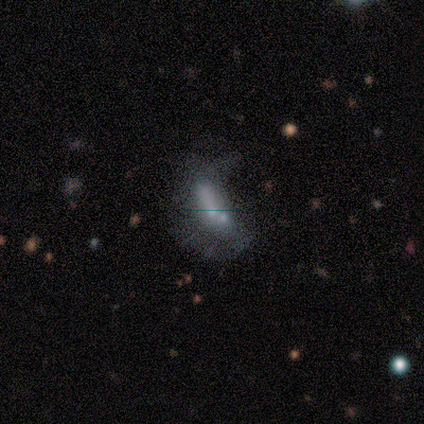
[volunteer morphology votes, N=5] smooth-or-featured: smooth: 60% | star or artifact: 40% | featured or disk: 0%
  how-rounded: in between: 100% | round: 0% | cigar-shaped: 0%
  merging: none: 67% | minor disturbance: 33% | major disturbance: 0% | merger: 0%